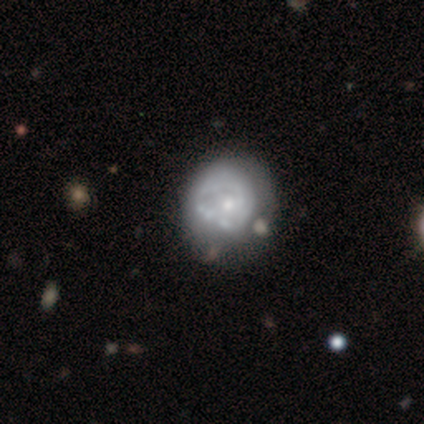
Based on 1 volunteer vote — Smooth or featured? featured or disk (100%)
Edge-on disk? no (100%)
Bar? no (100%)
Spiral arms? no (100%)
Bulge size? moderate (100%)
Merging? minor disturbance (100%)